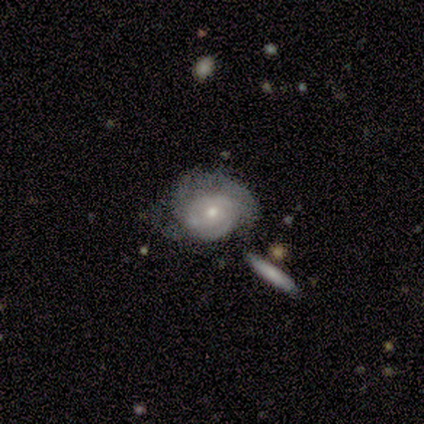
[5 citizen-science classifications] Smooth or featured? featured or disk (80%)
Edge-on disk? no (100%)
Bar? no (75%)
Spiral arms? yes (75%)
Spiral winding? tight (67%)
Spiral arm count? can't tell (67%)
Bulge size? small (75%)
Merging? none (60%)